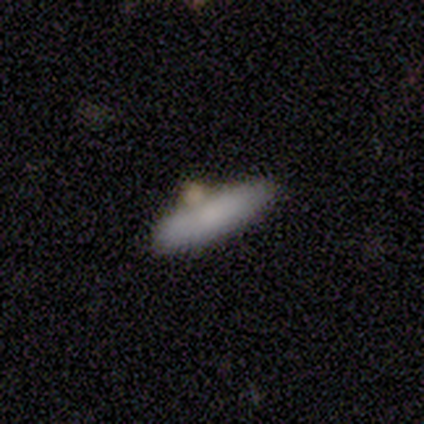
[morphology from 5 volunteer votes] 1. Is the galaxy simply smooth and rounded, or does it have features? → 80% smooth, 20% featured or disk, 0% star or artifact.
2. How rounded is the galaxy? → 75% cigar-shaped, 25% in between, 0% round.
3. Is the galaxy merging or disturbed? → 80% none, 20% merger, 0% minor disturbance, 0% major disturbance.